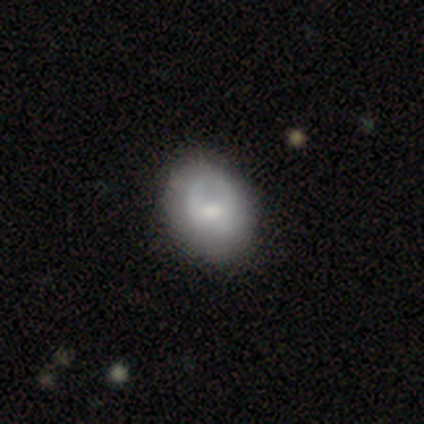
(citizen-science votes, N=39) Volunteers were most divided on "smooth or featured": smooth: 51%, featured or disk: 41%, star or artifact: 8%. Remaining: how rounded — in between (70%); merging — none (39%).